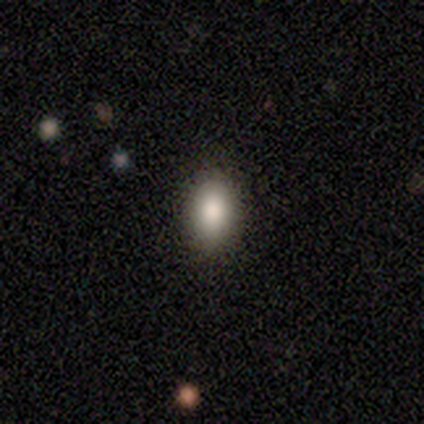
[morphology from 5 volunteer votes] type=smooth (100%); roundness=in between (60%); merging=none (100%).